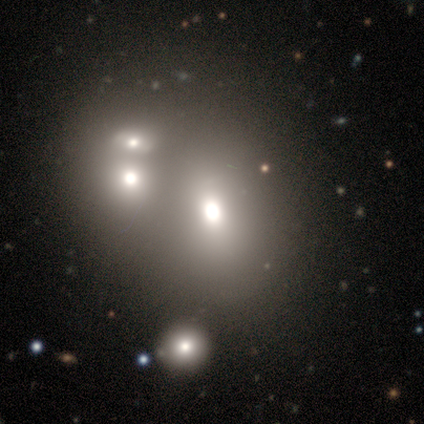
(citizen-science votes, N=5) This appears to be a smooth galaxy with no disk features (100%) that is in between round and cigar-shaped (80%). Merging: merger (100%).